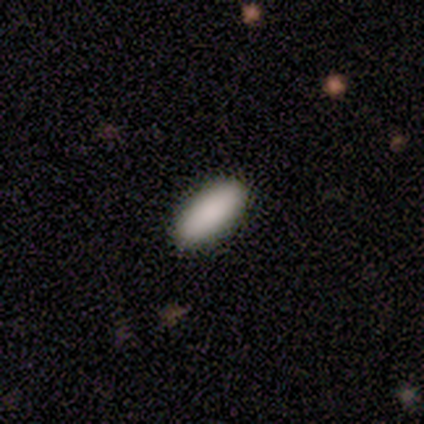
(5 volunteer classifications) Smooth or featured? smooth (60%)
How rounded? in between (100%)
Merging? none (100%)